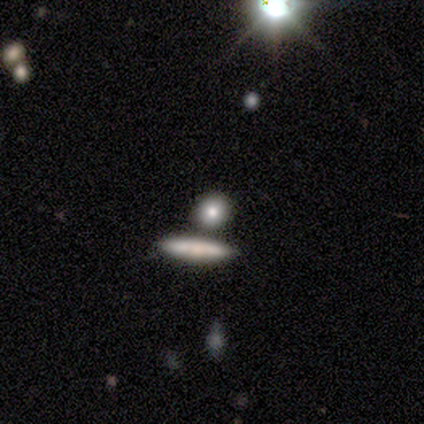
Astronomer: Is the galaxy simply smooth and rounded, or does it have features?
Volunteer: smooth — 100%.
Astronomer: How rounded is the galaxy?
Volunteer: cigar-shaped — 50%.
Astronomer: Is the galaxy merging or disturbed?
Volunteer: none — 50%.